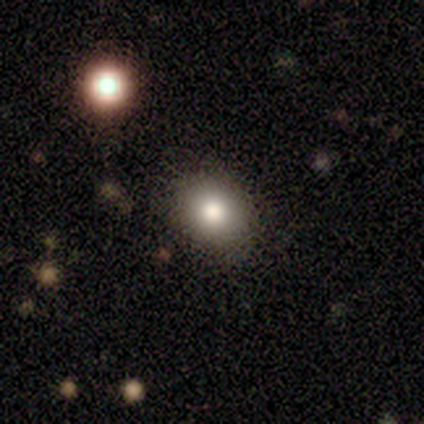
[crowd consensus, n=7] Volunteers were most divided on "how rounded" (2-way tie): round: 50%, in between: 50%, cigar-shaped: 0%. More confident: merging — none (100%); smooth or featured — smooth (86%).